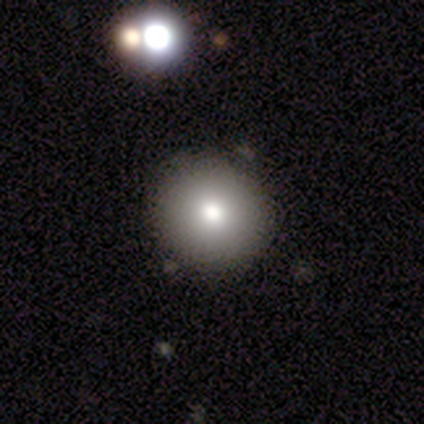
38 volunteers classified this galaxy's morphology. Smooth or featured?
  - smooth: 79% *
  - featured or disk: 11%
  - star or artifact: 11%
How rounded?
  - round: 100% *
  - in between: 0%
  - cigar-shaped: 0%
Merging?
  - none: 79% *
  - minor disturbance: 21%
  - major disturbance: 0%
  - merger: 0%